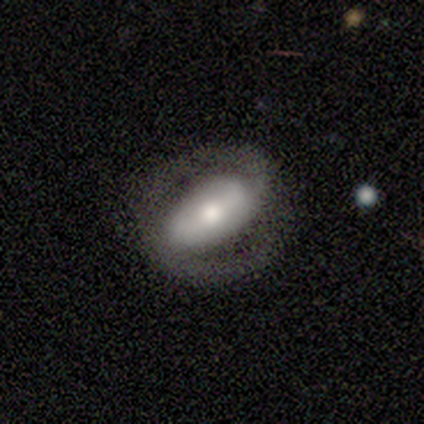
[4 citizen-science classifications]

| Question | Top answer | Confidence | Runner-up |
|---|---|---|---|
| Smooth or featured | featured or disk | 75% | star or artifact (25%) |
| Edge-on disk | no | 100% | — |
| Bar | no | 100% | — |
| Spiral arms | no | 67% | yes (33%) |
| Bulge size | moderate | 67% | large (33%) |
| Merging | none | 100% | — |